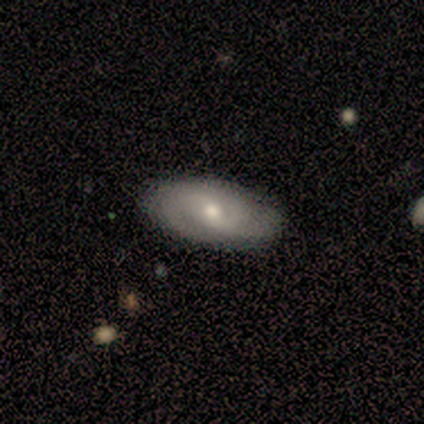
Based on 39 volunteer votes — smooth_or_featured: featured or disk (p=0.67) [alt: smooth p=0.26]
disk_edge_on: no (p=1.00)
bar: no (p=0.50) [alt: weak p=0.42]
has_spiral_arms: yes (p=0.96) [alt: no p=0.04]
spiral_winding: tight (p=0.52) [alt: medium p=0.40]
spiral_arm_count: 2 (p=0.60) [alt: can't tell p=0.24]
bulge_size: moderate (p=0.50) [tied with: small p=0.50]
merging: none (p=0.86) [alt: minor disturbance p=0.11]